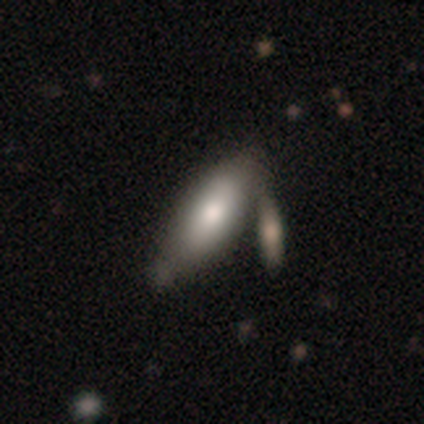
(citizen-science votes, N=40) Smooth or featured?
  - smooth: 80% *
  - featured or disk: 18%
  - star or artifact: 2%
How rounded?
  - in between: 75% *
  - cigar-shaped: 25%
  - round: 0%
Merging?
  - merger: 38% *
  - none: 23%
  - minor disturbance: 18%
  - major disturbance: 3%